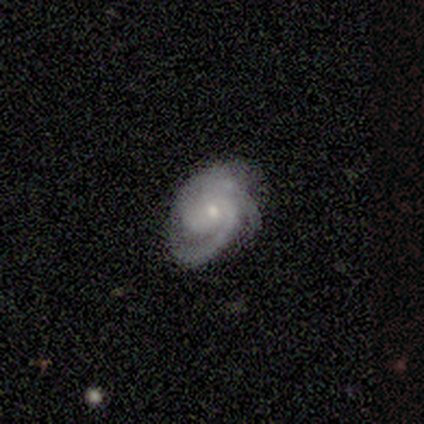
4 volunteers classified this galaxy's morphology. A featured or disk galaxy (100%) with no bar (75%), 1 (25%, tied with 2, 3 and can't tell) tight (75%) spiral arms (100%) and a small central bulge (100%). Merging: none (100%).